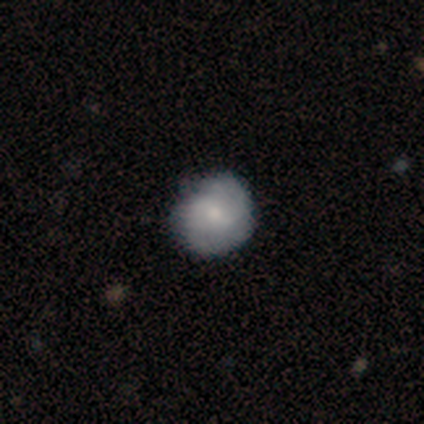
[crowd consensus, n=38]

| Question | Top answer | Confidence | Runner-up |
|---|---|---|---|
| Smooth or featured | smooth | 74% | featured or disk (21%) |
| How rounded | round | 93% | in between (7%) |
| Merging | none | 78% | minor disturbance (22%) |